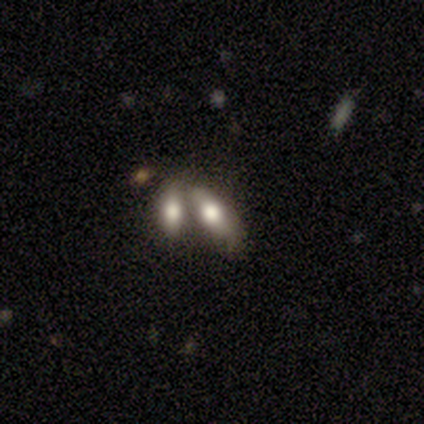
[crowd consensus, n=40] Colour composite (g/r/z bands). It shows a smooth galaxy with no disk features (68%) that is in between round and cigar-shaped (81%). Merging: merger (66%).